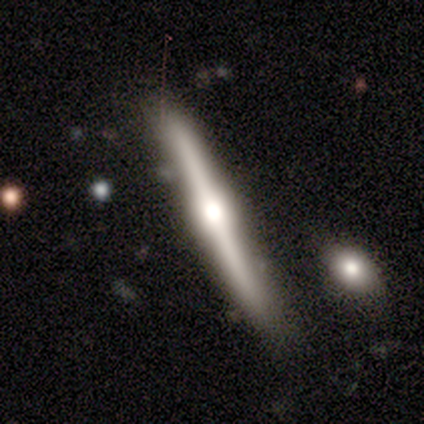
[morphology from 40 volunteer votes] This appears to be a featured or disk galaxy (80%) viewed edge-on (100%) with a rounded central bulge (84%). Merging: none (77%).